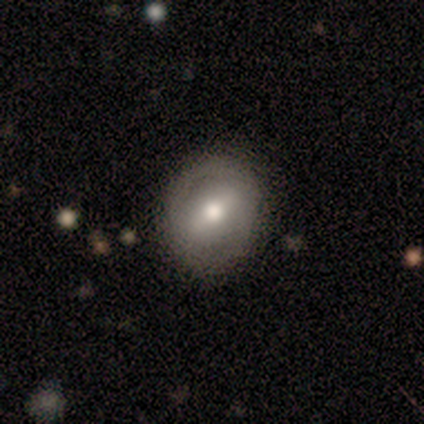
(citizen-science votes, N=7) Smooth or featured: featured or disk — 86% (smooth — 14%)
Edge-on disk: no — 83% (yes — 17%)
Bar: weak — 60% (strong — 40%)
Spiral arms: no — 80% (yes — 20%)
Bulge size: moderate — 100%
Merging: none — 71% (minor disturbance — 29%)